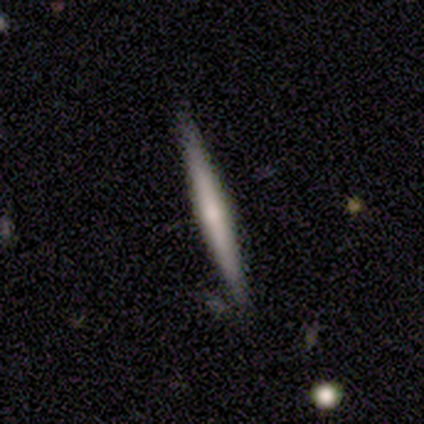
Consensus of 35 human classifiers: smooth-or-featured: smooth: 49% | featured or disk: 43% | star or artifact: 9%
  how-rounded: cigar-shaped: 94% | in between: 6% | round: 0%
  merging: none: 81% | minor disturbance: 16% | major disturbance: 3% | merger: 0%